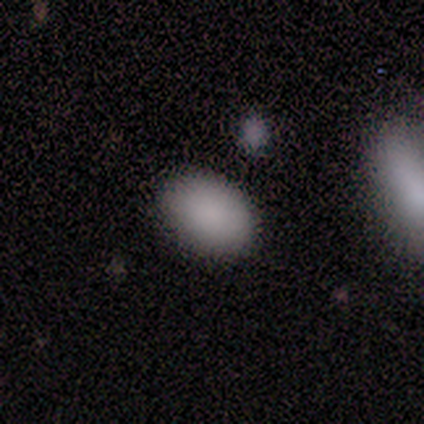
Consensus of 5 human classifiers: A smooth galaxy with no disk features (100%) that is in between round and cigar-shaped (80%).

Vote fractions:
- Smooth or featured? smooth: 100% / featured or disk: 0% / star or artifact: 0%
- How rounded? in between: 80% / round: 20% / cigar-shaped: 0%
- Merging? none: 80% / merger: 20% / minor disturbance: 0% / major disturbance: 0%